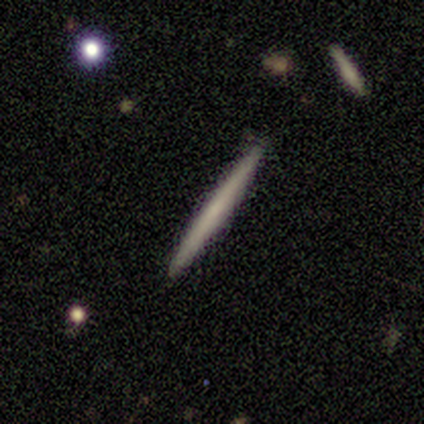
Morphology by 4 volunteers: type=smooth (75%); roundness=cigar-shaped (100%); merging=none (100%).